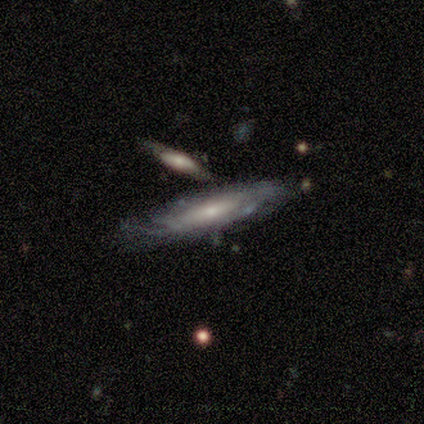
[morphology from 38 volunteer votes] Volunteers were most divided on "bulge size": small: 55%, moderate: 45%, dominant: 0%, large: 0%, none: 0%. More confident: spiral arms — yes (95%); bar — no (80%); spiral arm count — can't tell (79%); smooth or featured — featured or disk (76%); edge-on disk — no (69%); spiral winding — tight (63%); merging — none (63%).